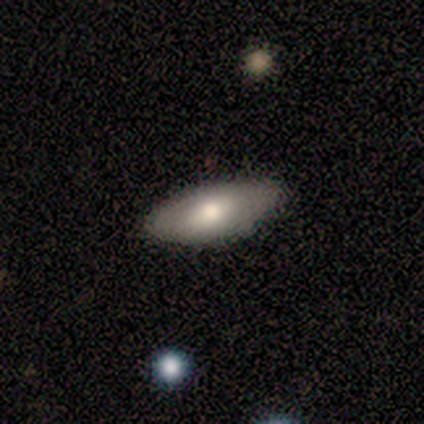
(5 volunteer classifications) Smooth or featured? 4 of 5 (80%) said smooth. How rounded? 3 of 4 (75%) said in between. Merging? 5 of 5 (100%) said none.